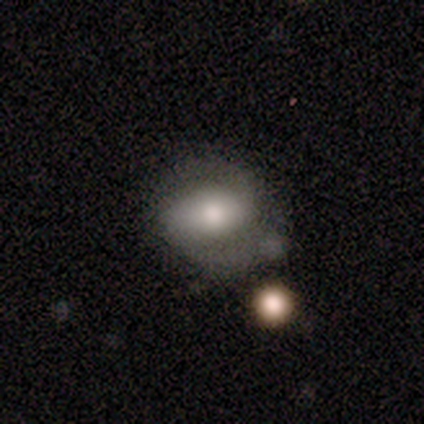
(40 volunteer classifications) Volunteers were most divided on "bar": strong: 38%, weak: 33%, no: 29%. More confident: spiral arm count — 2 (100%); spiral arms — yes (90%); edge-on disk — no (88%); bulge size — moderate (67%); smooth or featured — featured or disk (60%); spiral winding — medium (58%); merging — none (55%).